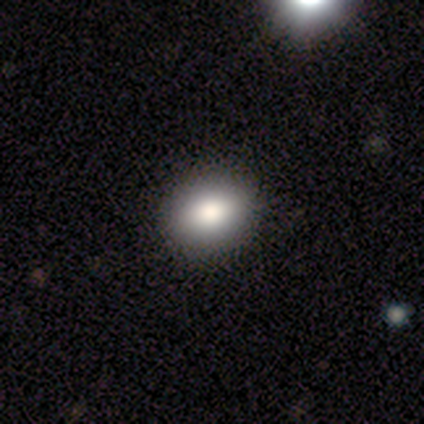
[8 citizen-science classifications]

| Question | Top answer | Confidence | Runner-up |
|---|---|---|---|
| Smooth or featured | smooth | 88% | star or artifact (12%) |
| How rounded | in between | 57% | round (43%) |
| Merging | none | 100% | — |